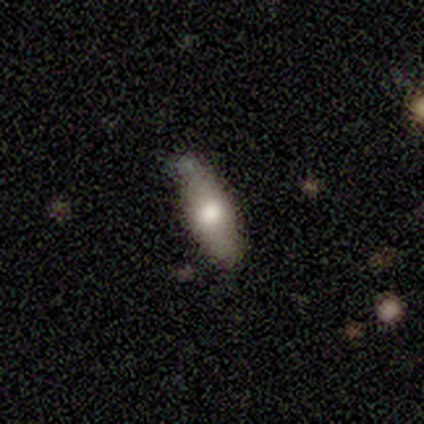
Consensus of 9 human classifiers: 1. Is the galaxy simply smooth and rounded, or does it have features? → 67% smooth, 22% featured or disk, 11% star or artifact.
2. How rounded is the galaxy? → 67% in between, 33% cigar-shaped, 0% round.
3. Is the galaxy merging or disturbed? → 62% none, 25% merger, 12% minor disturbance, 0% major disturbance.